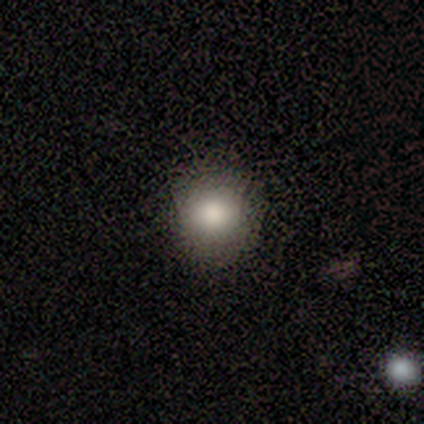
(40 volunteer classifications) smooth 78%, star or artifact 15%, featured or disk 8%. Down the decision tree: how rounded — round (90%); merging — none (74%).